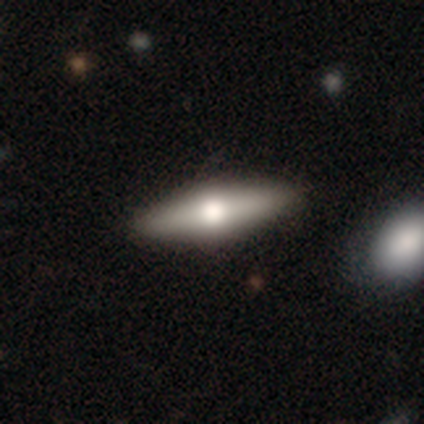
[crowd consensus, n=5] smooth_or_featured: smooth (p=0.60) [alt: featured or disk p=0.40]
how_rounded: in between (p=1.00)
merging: none (p=0.80) [alt: merger p=0.20]